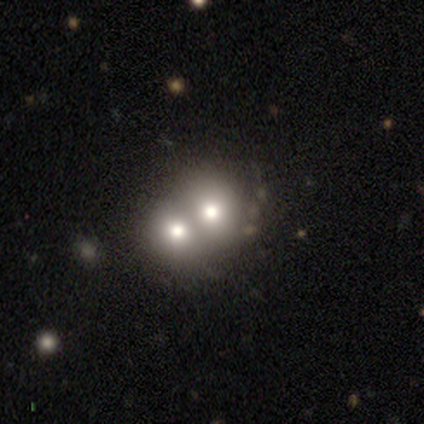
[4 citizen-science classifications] Smooth or featured?
  - smooth: 100% *
  - featured or disk: 0%
  - star or artifact: 0%
How rounded?
  - round: 75% *
  - in between: 25%
  - cigar-shaped: 0%
Merging?
  - merger: 100% *
  - none: 0%
  - minor disturbance: 0%
  - major disturbance: 0%